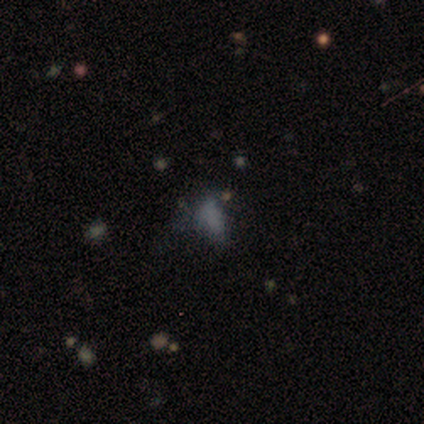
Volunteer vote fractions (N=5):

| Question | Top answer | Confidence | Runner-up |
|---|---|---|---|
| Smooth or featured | smooth | 40% | tied: star or artifact (40%) |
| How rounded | in between | 50% | tied: cigar-shaped (50%) |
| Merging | minor disturbance | 33% | tied: major disturbance (33%), merger (33%) |